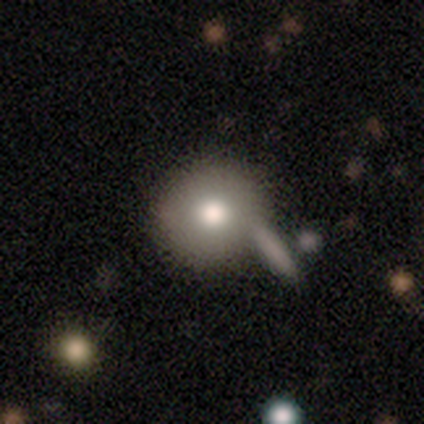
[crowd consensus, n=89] Overall: smooth (79%). How rounded: round (89%). Merging: none (70%).